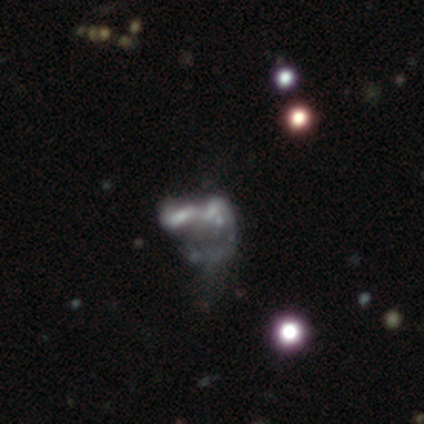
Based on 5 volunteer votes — Smooth or featured? 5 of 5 (100%) said featured or disk. Edge-on disk? 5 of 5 (100%) said no. Bar? 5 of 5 (100%) said no. Spiral arms? 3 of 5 (60%) said no. Bulge size? 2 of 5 (40%) said none. Merging? 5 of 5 (100%) said merger.